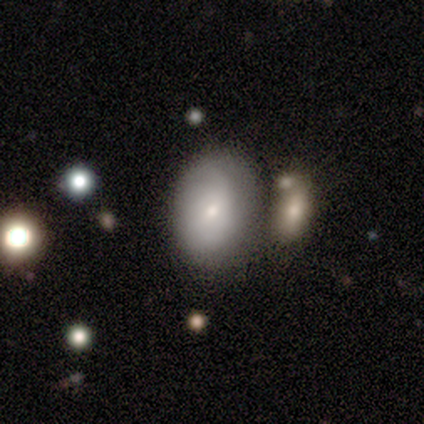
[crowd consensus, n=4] Smooth or featured? 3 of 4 (75%) said featured or disk. Edge-on disk? 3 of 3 (100%) said no. Bar? 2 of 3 (67%) said no. Spiral arms? 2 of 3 (67%) said no. Bulge size? 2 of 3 (67%) said moderate. Merging? 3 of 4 (75%) said none.